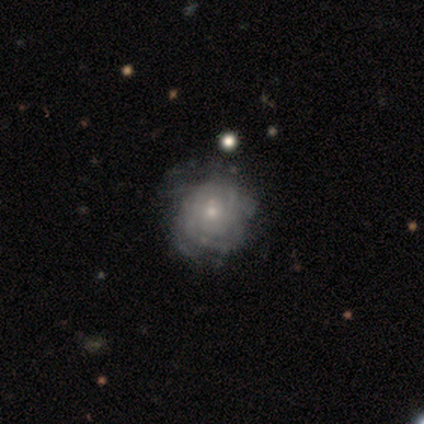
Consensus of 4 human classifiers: Smooth or featured? featured or disk (50%)
Edge-on disk? no (100%)
Bar? no (100%)
Spiral arms? yes (100%)
Spiral winding? tight (100%)
Spiral arm count? 4 (50%, tied with can't tell)
Bulge size? small (100%)
Merging? none (67%)